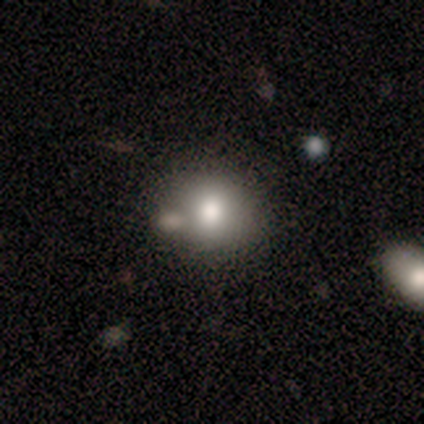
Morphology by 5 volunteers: Overall: smooth (60%; featured or disk 20%). How rounded: in between (67%; round 33%). Merging: none (75%).